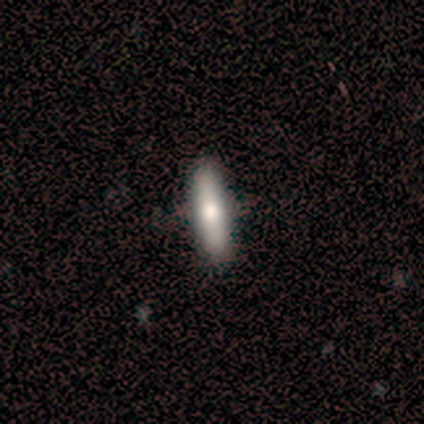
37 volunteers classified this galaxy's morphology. smooth-or-featured: smooth: 73% | featured or disk: 24% | star or artifact: 3%
  how-rounded: cigar-shaped: 63% | in between: 33% | round: 4%
  merging: none: 72% | minor disturbance: 3% | major disturbance: 3% | merger: 0%